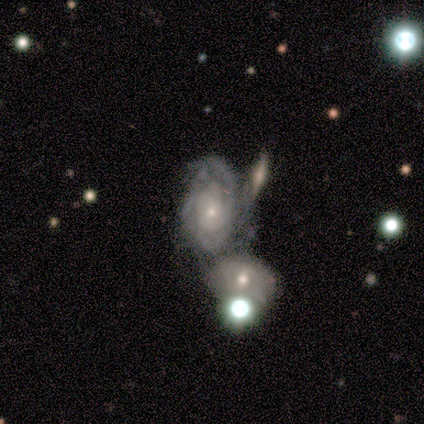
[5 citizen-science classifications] featured or disk 100%, smooth 0%, star or artifact 0%. Down the decision tree: edge-on disk — no (100%); bar — no (80%); spiral arms — yes (100%); spiral arm count — can't tell (60%); spiral winding — tight (40%, tied with medium); bulge size — small (60%); merging — merger (80%).